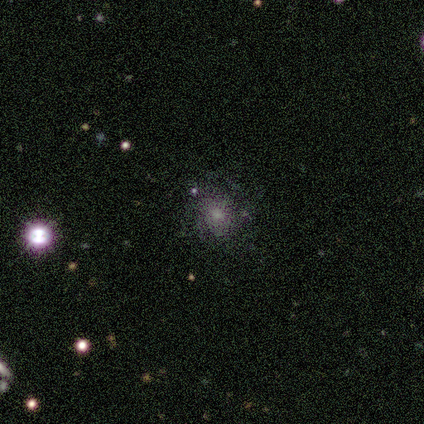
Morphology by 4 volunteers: smooth-or-featured: smooth: 75% | star or artifact: 25% | featured or disk: 0%
  how-rounded: round: 67% | in between: 33% | cigar-shaped: 0%
  merging: none: 67% | minor disturbance: 33% | major disturbance: 0% | merger: 0%